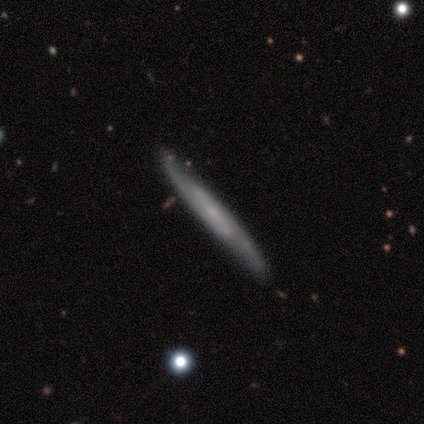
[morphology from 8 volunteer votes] Smooth or featured? 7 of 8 (88%) said featured or disk. Edge-on disk? 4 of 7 (57%) said no. Bar? 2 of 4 (50%) said weak. Spiral arms? 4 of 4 (100%) said yes. Spiral winding? 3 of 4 (75%) said medium. Spiral arm count? 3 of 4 (75%) said 2. Bulge size? 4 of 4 (100%) said small. Merging? 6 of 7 (86%) said none.